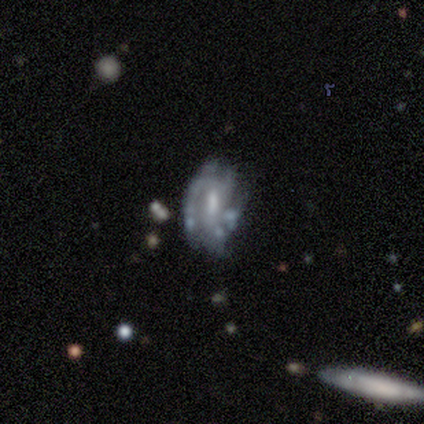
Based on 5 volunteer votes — smooth-or-featured: featured or disk: 60% | smooth: 20% | star or artifact: 20%
  disk-edge-on: no: 100% | yes: 0%
    bar: weak: 67% | no: 33% | strong: 0%
    has-spiral-arms: yes: 100% | no: 0%
      spiral-winding: tight: 100% | medium: 0% | loose: 0%
      spiral-arm-count: can't tell: 100% | 1: 0% | 2: 0% | 3: 0% | 4: 0% | more than 4: 0%
    bulge-size: dominant: 33% (tied) | moderate: 33% (tied) | small: 33% (tied) | large: 0% | none: 0%
  merging: minor disturbance: 50% | none: 25% | major disturbance: 25% | merger: 0%